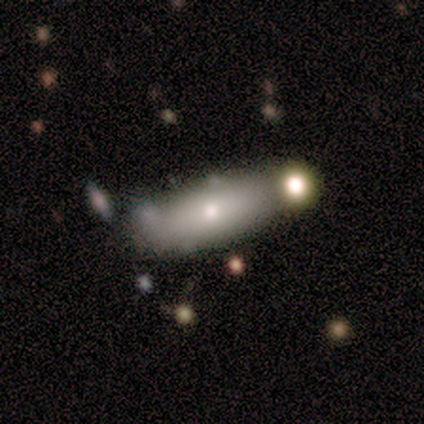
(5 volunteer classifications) smooth-or-featured: smooth: 40% (tied) | star or artifact: 40% (tied) | featured or disk: 20%
  how-rounded: round: 50% (tied) | cigar-shaped: 50% (tied) | in between: 0%
  merging: merger: 67% | minor disturbance: 33% | none: 0% | major disturbance: 0%